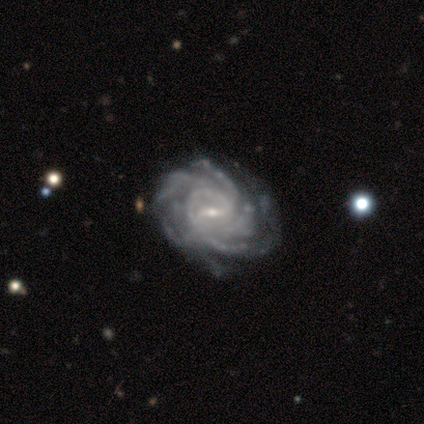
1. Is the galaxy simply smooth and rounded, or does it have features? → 67% featured or disk, 17% smooth, 17% star or artifact.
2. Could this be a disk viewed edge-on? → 100% no, 0% yes.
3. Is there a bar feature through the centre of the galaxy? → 100% weak, 0% strong, 0% no.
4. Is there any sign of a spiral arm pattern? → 100% yes, 0% no.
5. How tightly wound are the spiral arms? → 75% tight, 25% medium, 0% loose.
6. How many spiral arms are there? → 50% can't tell, 25% 3, 25% 4, 0% 1, 0% 2, 0% more than 4.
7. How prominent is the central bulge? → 100% small, 0% dominant, 0% large, 0% moderate, 0% none.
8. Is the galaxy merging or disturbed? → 80% none, 20% minor disturbance, 0% major disturbance, 0% merger.